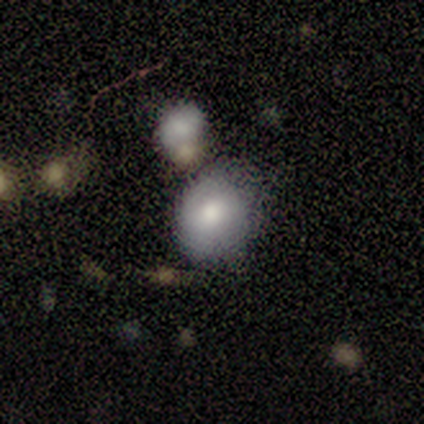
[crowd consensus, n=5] This is likely a smooth galaxy (60%). How rounded: likely round (67%). Merging: marginally none (40%, tied with merger).